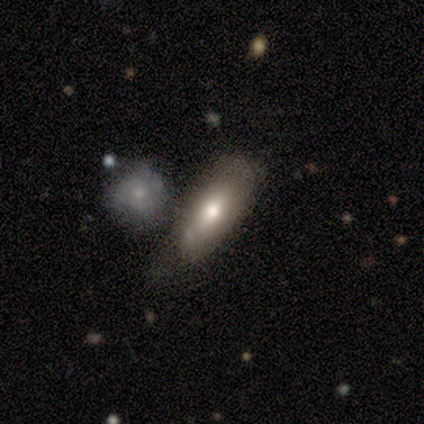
smooth 86%, featured or disk 14%, star or artifact 0%. Down the decision tree: how rounded — in between (100%); merging — none (86%).